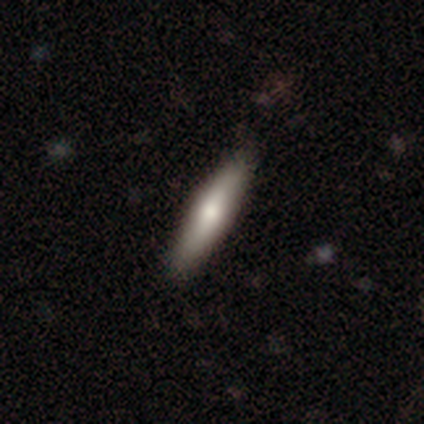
This appears to be a smooth galaxy with no disk features (58%) that is cigar-shaped (89%). Merging: none (50%).